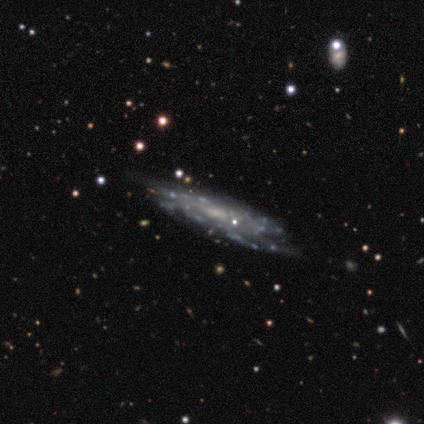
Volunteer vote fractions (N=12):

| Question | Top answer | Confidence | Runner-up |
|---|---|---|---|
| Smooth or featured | featured or disk | 100% | — |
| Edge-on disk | no | 92% | yes (8%) |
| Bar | no | 82% | weak (18%) |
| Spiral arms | yes | 73% | no (27%) |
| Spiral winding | tight | 50% | medium (38%) |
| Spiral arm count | can't tell | 75% | 4 (12%) |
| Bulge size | small | 91% | moderate (9%) |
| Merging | none | 75% | minor disturbance (17%) |